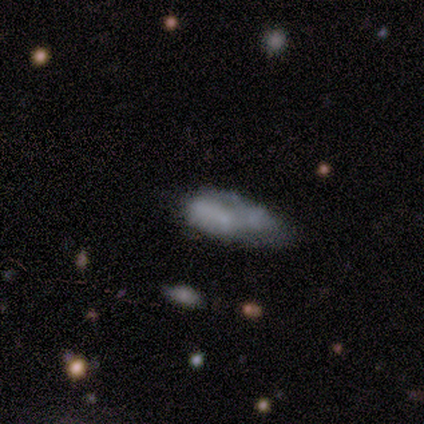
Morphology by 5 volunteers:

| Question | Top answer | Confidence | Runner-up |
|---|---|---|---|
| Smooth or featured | smooth | 80% | featured or disk (20%) |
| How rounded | in between | 100% | — |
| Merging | none | 40% | tied: major disturbance (40%) |